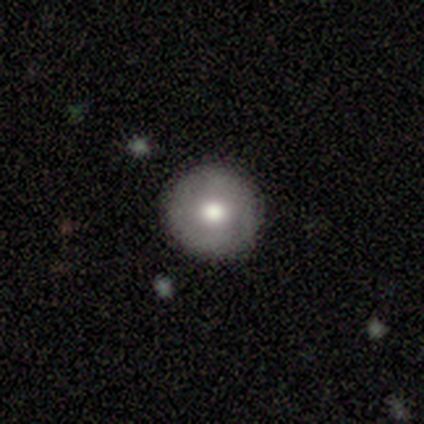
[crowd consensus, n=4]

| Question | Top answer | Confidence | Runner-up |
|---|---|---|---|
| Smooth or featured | smooth | 100% | — |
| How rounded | round | 100% | — |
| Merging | none | 100% | — |